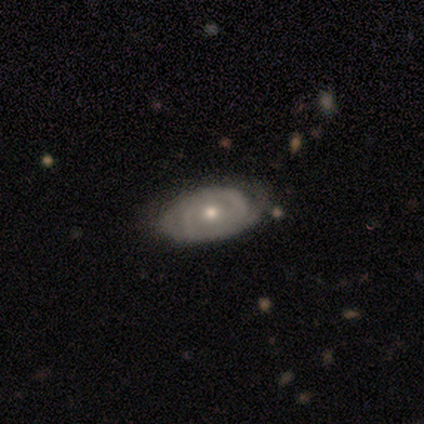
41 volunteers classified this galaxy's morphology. smooth_or_featured: featured or disk (p=0.76) [alt: smooth p=0.15]
disk_edge_on: no (p=1.00)
bar: no (p=0.81) [alt: strong p=0.10]
has_spiral_arms: yes (p=0.74) [alt: no p=0.26]
spiral_winding: tight (p=0.65) [alt: medium p=0.17]
spiral_arm_count: 2 (p=0.48) [alt: can't tell p=0.35]
bulge_size: moderate (p=0.48) [tied with: small p=0.48]
merging: none (p=0.65) [alt: minor disturbance p=0.27]